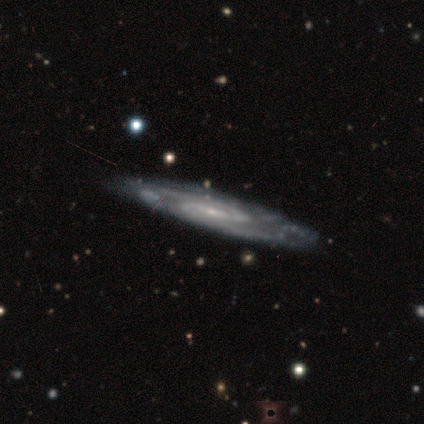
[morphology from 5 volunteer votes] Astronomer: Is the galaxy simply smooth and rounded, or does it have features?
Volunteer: featured or disk — 80%.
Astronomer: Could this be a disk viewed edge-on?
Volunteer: no — 75%.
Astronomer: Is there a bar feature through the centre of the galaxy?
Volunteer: no — 67%.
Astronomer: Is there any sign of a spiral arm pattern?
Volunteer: yes — 100%.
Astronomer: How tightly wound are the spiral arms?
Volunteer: medium — 67%.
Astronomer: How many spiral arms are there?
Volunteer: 2 — 67%.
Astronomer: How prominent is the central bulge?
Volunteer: small — 100%.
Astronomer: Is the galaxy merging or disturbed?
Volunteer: none — 75%.